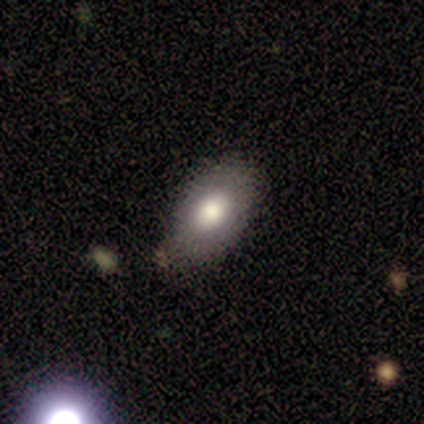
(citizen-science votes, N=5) smooth-or-featured: smooth: 100% | featured or disk: 0% | star or artifact: 0%
  how-rounded: in between: 100% | round: 0% | cigar-shaped: 0%
  merging: none: 100% | minor disturbance: 0% | major disturbance: 0% | merger: 0%